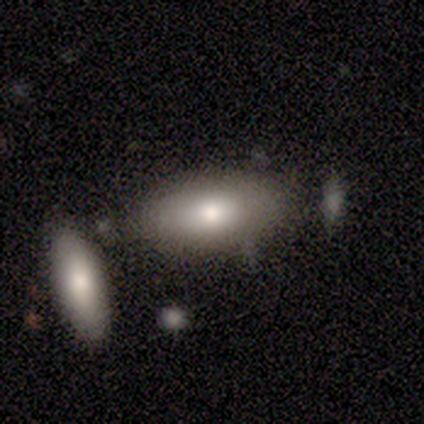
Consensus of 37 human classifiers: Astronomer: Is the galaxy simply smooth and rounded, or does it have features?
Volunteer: smooth — 84%.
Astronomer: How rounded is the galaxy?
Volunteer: in between — 90%.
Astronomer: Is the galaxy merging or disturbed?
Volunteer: none — 72%.